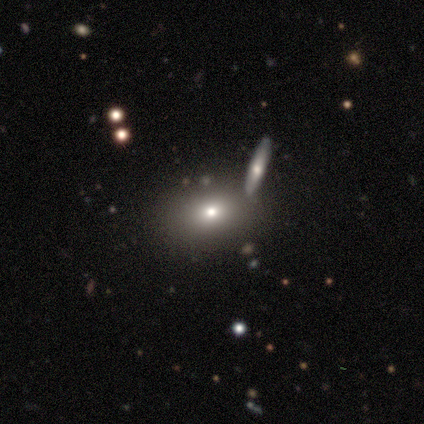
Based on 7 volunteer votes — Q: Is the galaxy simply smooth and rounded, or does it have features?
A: smooth — 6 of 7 (86%).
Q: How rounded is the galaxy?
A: in between — 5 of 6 (83%).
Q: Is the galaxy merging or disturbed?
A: none — 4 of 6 (67%).